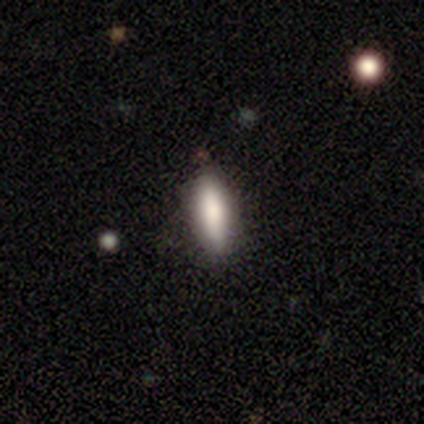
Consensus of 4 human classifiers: Smooth or featured?
  - smooth: 75% *
  - star or artifact: 25%
  - featured or disk: 0%
How rounded?
  - cigar-shaped: 67% *
  - in between: 33%
  - round: 0%
Merging?
  - none: 100% *
  - minor disturbance: 0%
  - major disturbance: 0%
  - merger: 0%